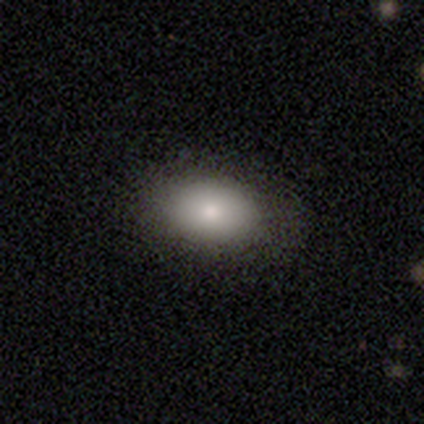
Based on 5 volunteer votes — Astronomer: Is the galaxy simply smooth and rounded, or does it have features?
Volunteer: smooth — 100%.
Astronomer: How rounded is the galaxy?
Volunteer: in between — 100%.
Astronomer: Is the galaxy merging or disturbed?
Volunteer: none — 100%.